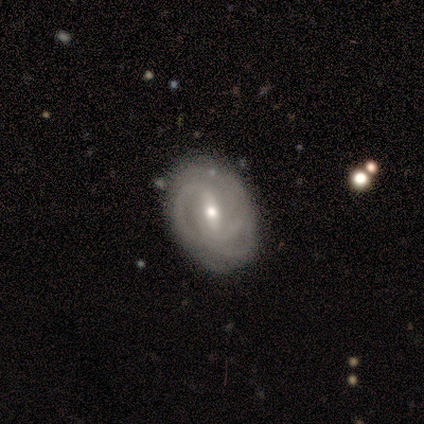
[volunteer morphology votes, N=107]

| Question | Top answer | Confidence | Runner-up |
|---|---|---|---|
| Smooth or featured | featured or disk | 86% | smooth (10%) |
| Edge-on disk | no | 97% | yes (3%) |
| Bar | weak | 48% | strong (42%) |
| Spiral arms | yes | 92% | no (8%) |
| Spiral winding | tight | 60% | medium (35%) |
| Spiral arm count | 2 | 44% | 3 (27%) |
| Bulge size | small | 51% | moderate (47%) |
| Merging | none | 70% | minor disturbance (23%) |